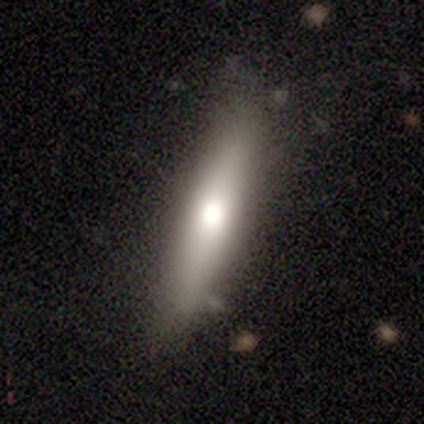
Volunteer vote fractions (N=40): Volunteers were most divided on "smooth or featured": smooth: 65%, featured or disk: 30%, star or artifact: 5%. More confident: how rounded — cigar-shaped (81%); merging — none (68%).